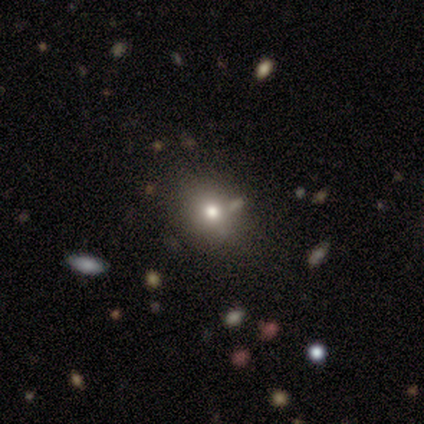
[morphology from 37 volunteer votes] Smooth or featured? smooth (70%)
How rounded? round (69%)
Merging? none (67%)